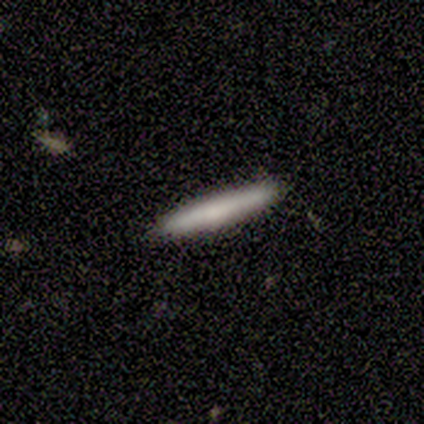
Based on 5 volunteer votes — Q: Smooth or featured?
A: smooth (60%); runner-up: featured or disk (40%)
Q: How rounded?
A: cigar-shaped (100%)
Q: Merging?
A: none (100%)